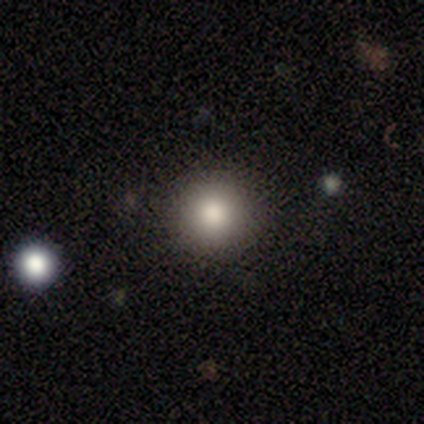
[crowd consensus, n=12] Q: Smooth or featured?
A: smooth (75%); runner-up: star or artifact (25%)
Q: How rounded?
A: round (89%); runner-up: in between (11%)
Q: Merging?
A: none (100%)